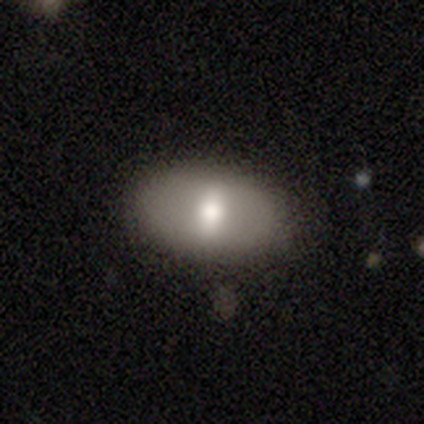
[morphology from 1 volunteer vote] This is clearly a smooth galaxy (100%). How rounded: clearly in between (100%). Merging: clearly none (100%).